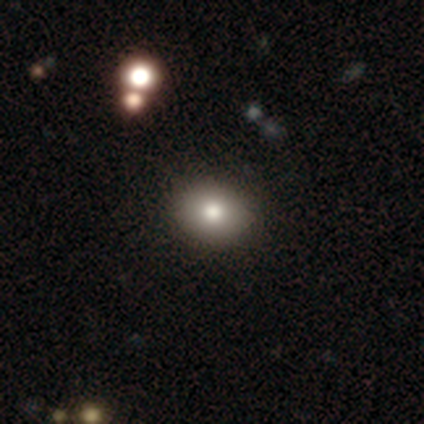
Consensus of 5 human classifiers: A smooth galaxy with no disk features (40%, tied with star or artifact) that is in between round and cigar-shaped (100%). Merging: none (100%).